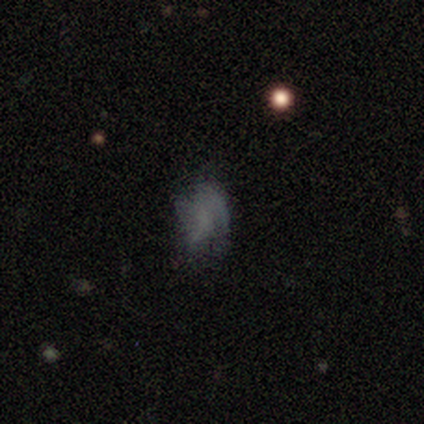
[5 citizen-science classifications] smooth-or-featured: smooth: 60% | featured or disk: 40% | star or artifact: 0%
  how-rounded: in between: 100% | round: 0% | cigar-shaped: 0%
  merging: none: 60% | minor disturbance: 20% | major disturbance: 20% | merger: 0%